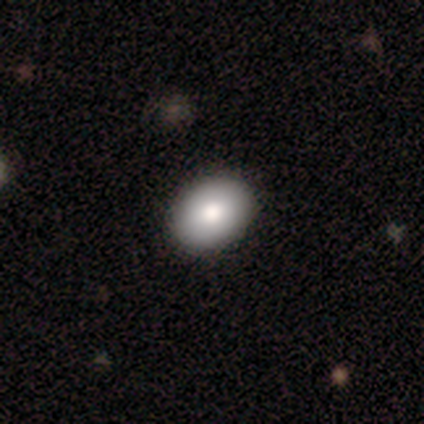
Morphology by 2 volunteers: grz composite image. It shows a smooth galaxy with no disk features (50%, tied with featured or disk) that is round (100%). Merging: none (100%).